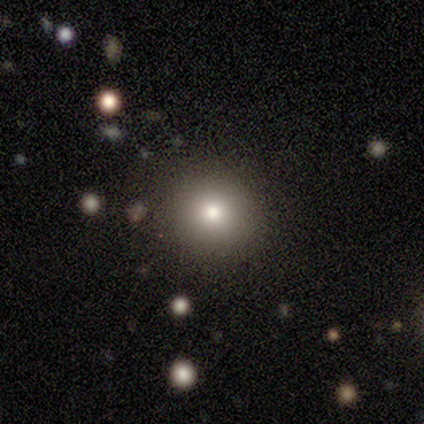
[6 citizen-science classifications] Overall: smooth (100%). How rounded: round (100%). Merging: none (83%).